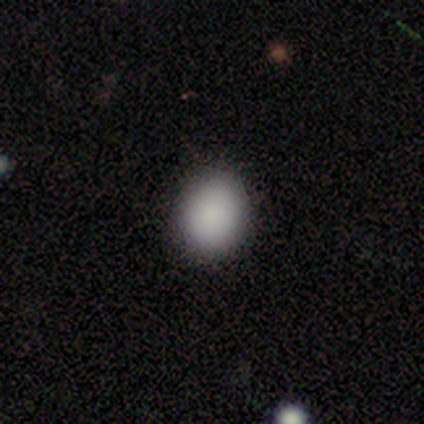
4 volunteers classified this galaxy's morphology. Overall: smooth (100%). How rounded: round (75%). Merging: none (75%).